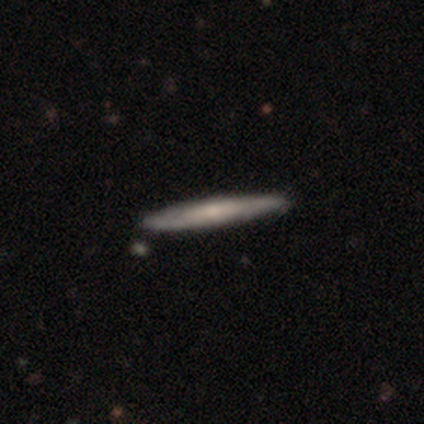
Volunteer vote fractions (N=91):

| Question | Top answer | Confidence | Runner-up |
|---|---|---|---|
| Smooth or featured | featured or disk | 49% | smooth (47%) |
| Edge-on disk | yes | 91% | no (9%) |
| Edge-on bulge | none | 66% | rounded (32%) |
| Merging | none | 91% | minor disturbance (7%) |